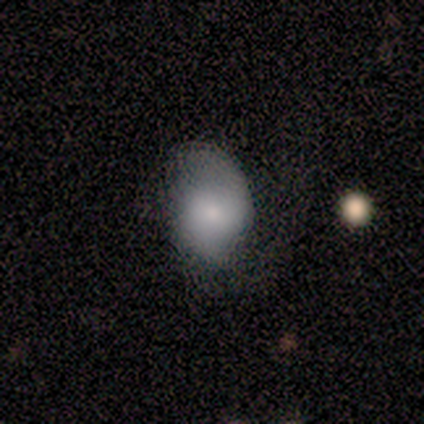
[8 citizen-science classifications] Smooth or featured? smooth (50%)
How rounded? in between (75%)
Merging? none (83%)